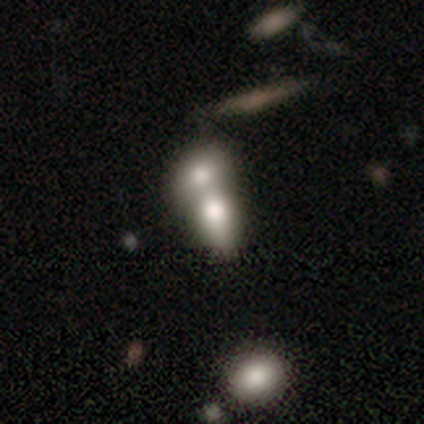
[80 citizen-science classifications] This appears to be a smooth galaxy with no disk features (79%) that is in between round and cigar-shaped (71%). Merging: merger (81%).